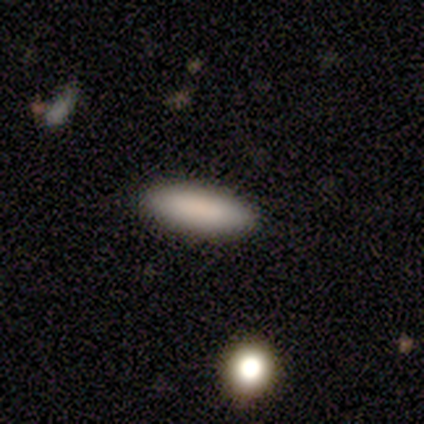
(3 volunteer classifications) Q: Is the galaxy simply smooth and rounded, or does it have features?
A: smooth — 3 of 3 (100%).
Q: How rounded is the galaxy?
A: cigar-shaped — 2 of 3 (67%).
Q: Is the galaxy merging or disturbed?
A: none — 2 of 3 (67%).